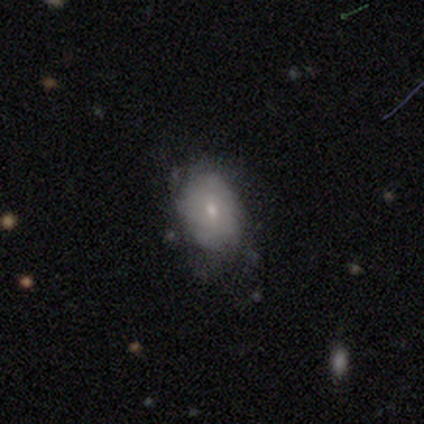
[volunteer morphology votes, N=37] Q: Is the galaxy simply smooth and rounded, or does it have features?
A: smooth — 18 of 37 (49%).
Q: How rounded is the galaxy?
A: in between — 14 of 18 (78%).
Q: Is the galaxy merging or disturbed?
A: none — 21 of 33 (64%).